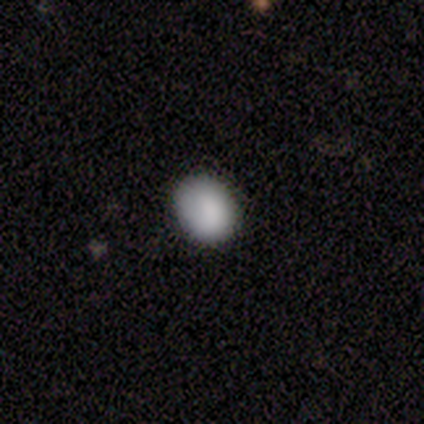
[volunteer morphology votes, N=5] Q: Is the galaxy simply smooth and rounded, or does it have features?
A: smooth — 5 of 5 (100%).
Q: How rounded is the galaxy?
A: round — 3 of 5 (60%).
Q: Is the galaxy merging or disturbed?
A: none — 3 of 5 (60%).